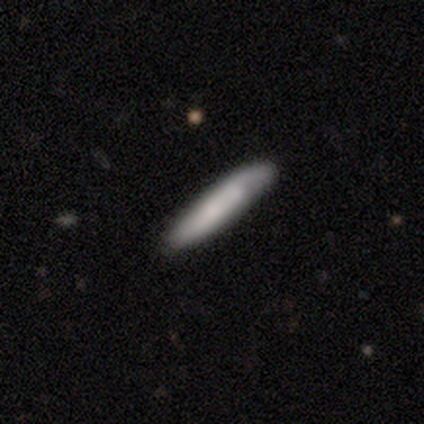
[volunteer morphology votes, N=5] Volunteers were most divided on "merging": none: 60%, minor disturbance: 20%, merger: 20%, major disturbance: 0%. More confident: smooth or featured — smooth (80%); how rounded — cigar-shaped (75%).